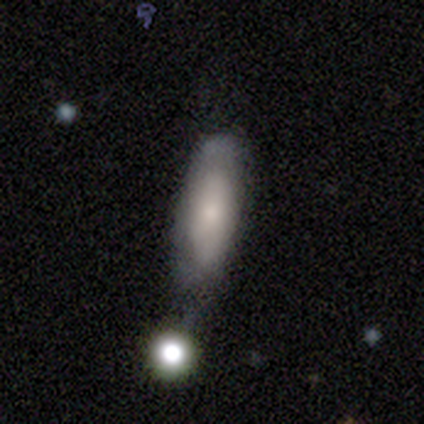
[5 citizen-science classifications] smooth 80%, featured or disk 20%, star or artifact 0%. Down the decision tree: how rounded — in between (75%); merging — merger (60%).